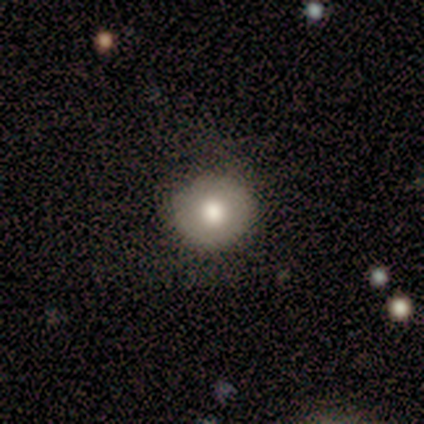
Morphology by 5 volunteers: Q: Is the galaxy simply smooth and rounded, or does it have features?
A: smooth — 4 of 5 (80%).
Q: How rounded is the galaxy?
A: round — 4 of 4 (100%).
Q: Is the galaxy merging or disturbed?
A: none — 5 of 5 (100%).